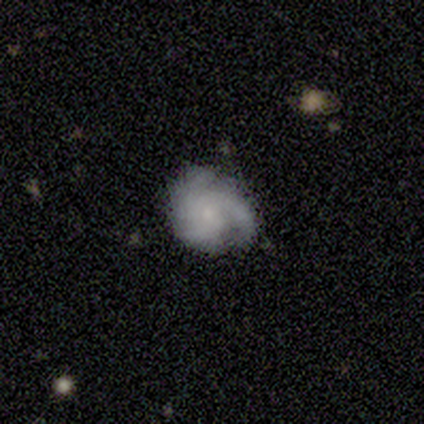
Smooth or featured: featured or disk — 80% (smooth — 20%)
Edge-on disk: no — 100%
Bar: no — 75% (weak — 25%)
Spiral arms: yes — 100%
Spiral winding: tight — 50% (tied with medium — 50%)
Spiral arm count: 3 — 100%
Bulge size: small — 50% (moderate — 25%)
Merging: none — 60% (minor disturbance — 20%)